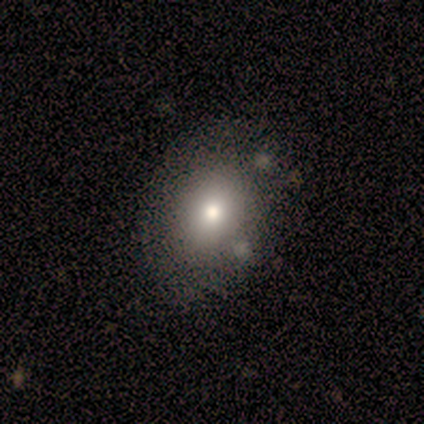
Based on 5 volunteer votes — Smooth or featured? smooth (40%, tied with featured or disk)
How rounded? in between (100%)
Merging? none (50%)